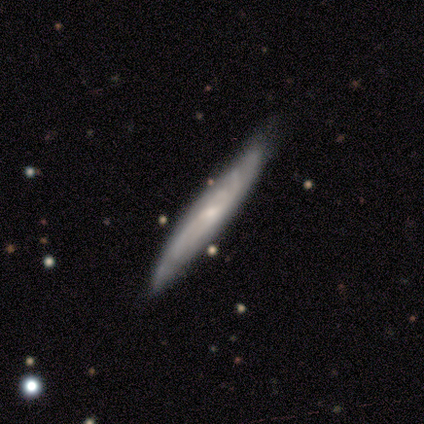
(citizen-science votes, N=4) Overall: featured or disk (75%). Edge-on disk: yes (67%; no 33%). Edge-on bulge: none (50%, tied with rounded). Merging: none (75%).